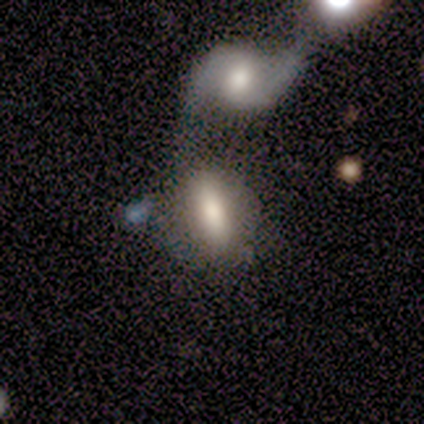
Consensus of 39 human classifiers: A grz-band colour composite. It shows a smooth galaxy with no disk features (72%) that is in between round and cigar-shaped (79%). Merging: merger (54%).